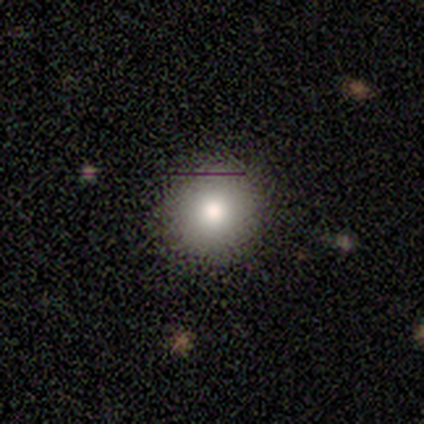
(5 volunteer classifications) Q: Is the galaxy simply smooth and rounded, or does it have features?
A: smooth — 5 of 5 (100%).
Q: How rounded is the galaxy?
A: round — 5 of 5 (100%).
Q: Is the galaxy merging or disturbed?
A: none — 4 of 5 (80%).